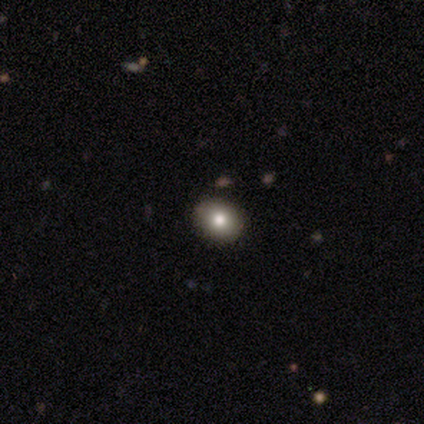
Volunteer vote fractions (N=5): Smooth or featured? 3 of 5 (60%) said smooth. How rounded? 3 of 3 (100%) said round. Merging? 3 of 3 (100%) said none.